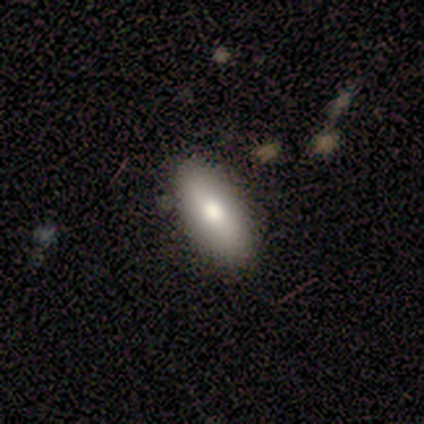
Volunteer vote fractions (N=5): This is clearly a smooth galaxy (80%). How rounded: clearly in between (100%). Merging: clearly none (100%).